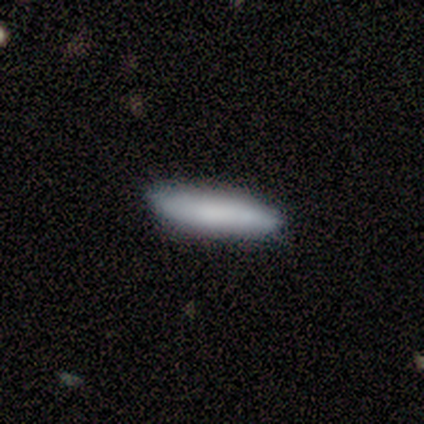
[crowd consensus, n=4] Volunteers were most divided on "how rounded": cigar-shaped: 67%, in between: 33%, round: 0%. More confident: smooth or featured — smooth (75%); merging — none (75%).